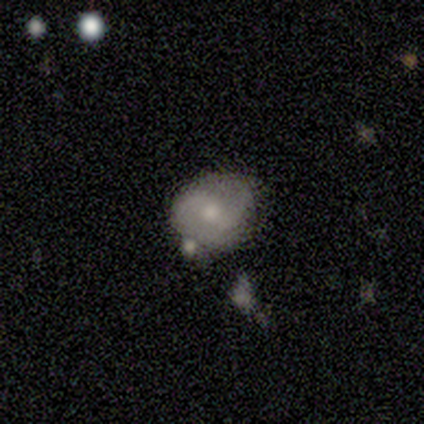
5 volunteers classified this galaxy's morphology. smooth_or_featured: featured or disk (p=1.00)
disk_edge_on: no (p=1.00)
bar: no (p=0.60) [alt: weak p=0.40]
has_spiral_arms: yes (p=0.80) [alt: no p=0.20]
spiral_winding: loose (p=0.50) [alt: tight p=0.25]
spiral_arm_count: 2 (p=1.00)
bulge_size: small (p=0.60) [alt: moderate p=0.40]
merging: minor disturbance (p=0.60) [alt: none p=0.40]